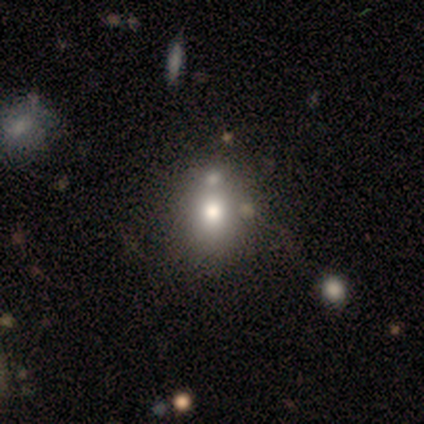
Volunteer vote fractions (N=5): Smooth or featured? 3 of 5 (60%) said smooth. How rounded? 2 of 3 (67%) said round. Merging? 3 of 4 (75%) said none.